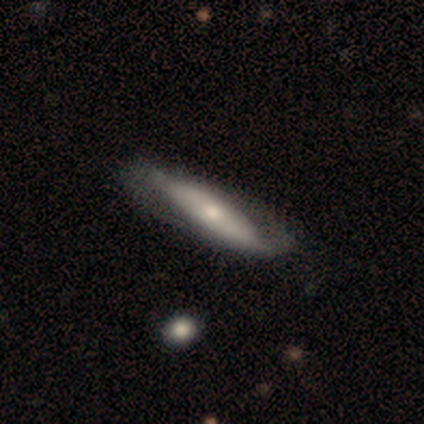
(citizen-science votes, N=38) smooth-or-featured: featured or disk: 71% | smooth: 29% | star or artifact: 0%
  disk-edge-on: no: 52% | yes: 48%
    bar: strong: 36% (tied) | no: 36% (tied) | weak: 29%
    has-spiral-arms: yes: 79% | no: 21%
      spiral-winding: loose: 64% | medium: 27% | tight: 9%
      spiral-arm-count: 2: 73% | 1: 9% | 3: 9% | 4: 9% | more than 4: 0% | can't tell: 0%
    bulge-size: moderate: 57% | small: 29% | large: 7% | none: 7% | dominant: 0%
  merging: none: 58% | minor disturbance: 21% | major disturbance: 0% | merger: 0%